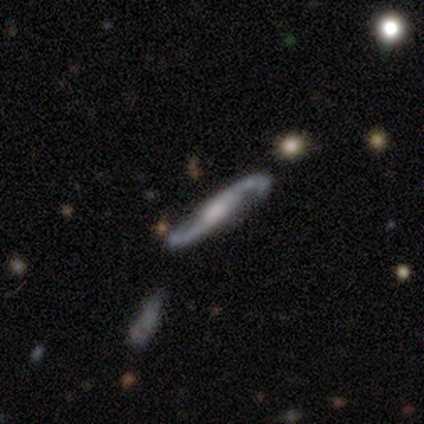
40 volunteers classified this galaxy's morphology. Smooth or featured? featured or disk (95%)
Edge-on disk? no (68%)
Bar? no (46%)
Spiral arms? yes (100%)
Spiral winding? loose (73%)
Spiral arm count? 2 (96%)
Bulge size? moderate (42%)
Merging? none (75%)